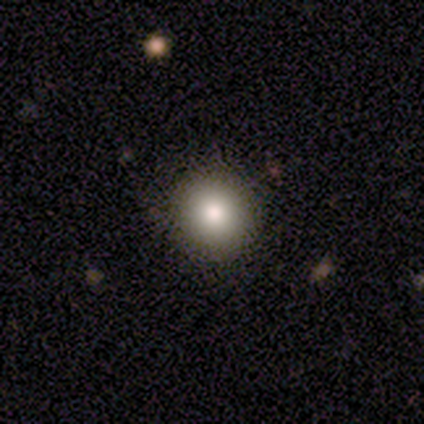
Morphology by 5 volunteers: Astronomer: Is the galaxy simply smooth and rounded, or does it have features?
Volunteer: smooth — 80%.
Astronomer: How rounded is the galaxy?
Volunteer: round — 100%.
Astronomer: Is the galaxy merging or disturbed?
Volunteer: none — 75%.